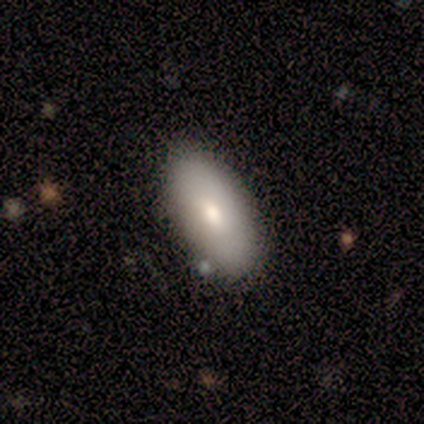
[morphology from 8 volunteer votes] smooth_or_featured: smooth (p=0.50) [alt: featured or disk p=0.38]
how_rounded: in between (p=1.00)
merging: none (p=1.00)